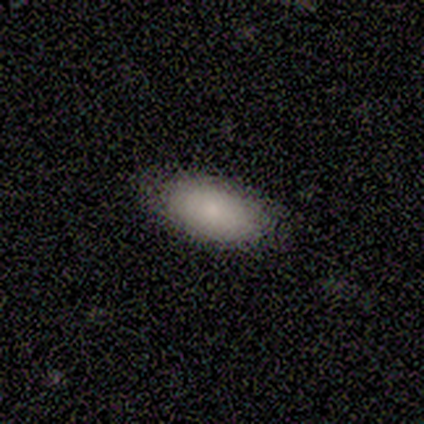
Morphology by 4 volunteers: smooth_or_featured: smooth (p=0.75) [alt: featured or disk p=0.25]
how_rounded: in between (p=0.67) [alt: round p=0.33]
merging: none (p=0.75) [alt: minor disturbance p=0.25]